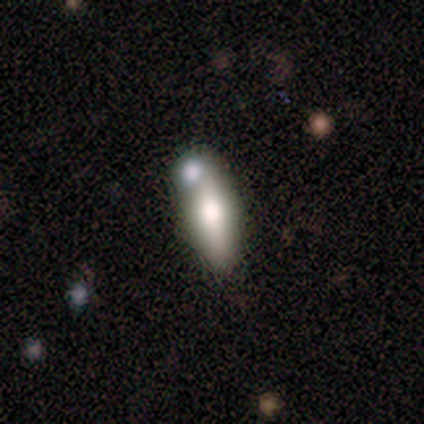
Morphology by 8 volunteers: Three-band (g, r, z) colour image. It shows a smooth galaxy with no disk features (75%) that is in between round and cigar-shaped (50%, tied with cigar-shaped). Merging: none (50%).